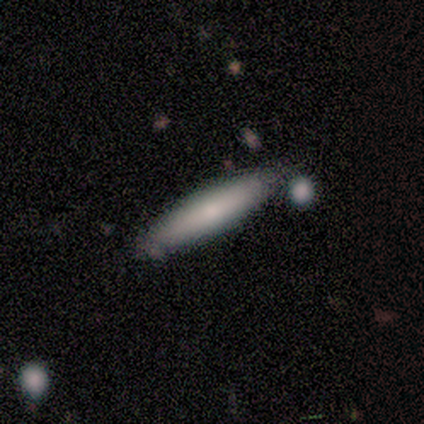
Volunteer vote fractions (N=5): This appears to be a smooth galaxy with no disk features (60%) that is cigar-shaped (100%). Merging: none (75%).